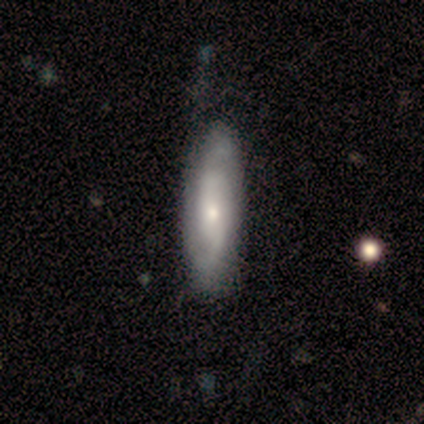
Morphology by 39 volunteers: This is likely a featured or disk galaxy (74%). It is clearly not viewed edge-on (93%). Bar: likely no (70%). Spiral arm pattern: clearly yes (89%). Spiral arm count: likely 2 (67%). Spiral winding: marginally loose (42%). Central bulge: possibly small (56%). Merging: clearly none (84%).